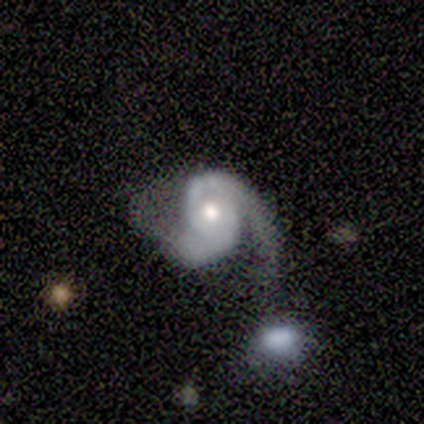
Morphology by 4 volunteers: Smooth or featured? 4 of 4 (100%) said featured or disk. Edge-on disk? 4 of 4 (100%) said no. Bar? 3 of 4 (75%) said no. Spiral arms? 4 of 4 (100%) said yes. Spiral winding? 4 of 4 (100%) said medium. Spiral arm count? 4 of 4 (100%) said 2. Bulge size? 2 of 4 (50%, tied with small) said moderate. Merging? 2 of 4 (50%) said none.